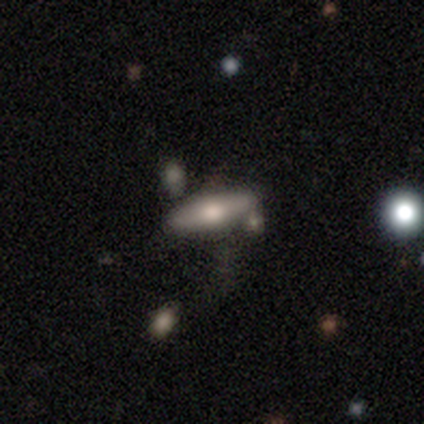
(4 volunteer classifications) Smooth or featured? 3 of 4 (75%) said smooth. How rounded? 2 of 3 (67%) said in between. Merging? 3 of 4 (75%) said none.